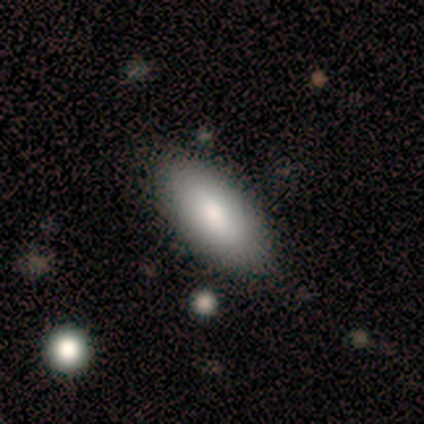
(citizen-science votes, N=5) A smooth galaxy with no disk features (60%) that is in between round and cigar-shaped (100%).

Vote fractions:
- Smooth or featured? smooth: 60% / star or artifact: 40% / featured or disk: 0%
- How rounded? in between: 100% / round: 0% / cigar-shaped: 0%
- Merging? none: 100% / minor disturbance: 0% / major disturbance: 0% / merger: 0%